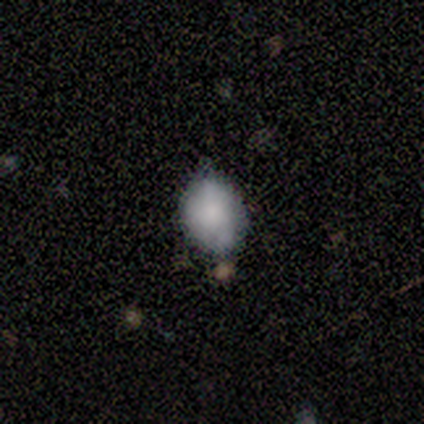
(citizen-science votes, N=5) This appears to be a smooth galaxy with no disk features (100%) that is in between round and cigar-shaped (60%). Merging: none (60%).